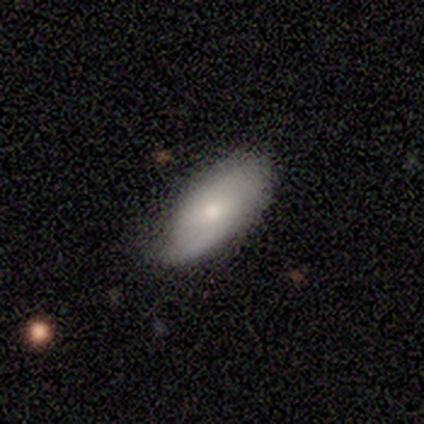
This appears to be a smooth galaxy with no disk features (50%, tied with featured or disk) that is in between round and cigar-shaped (100%). Merging: none (50%, tied with minor disturbance).